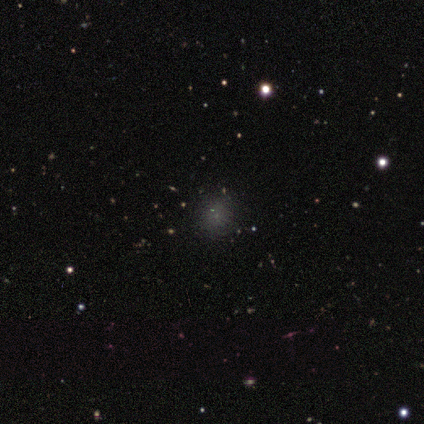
Q: Smooth or featured?
A: smooth (80%); runner-up: star or artifact (20%)
Q: How rounded?
A: round (100%)
Q: Merging?
A: none (75%); runner-up: minor disturbance (25%)